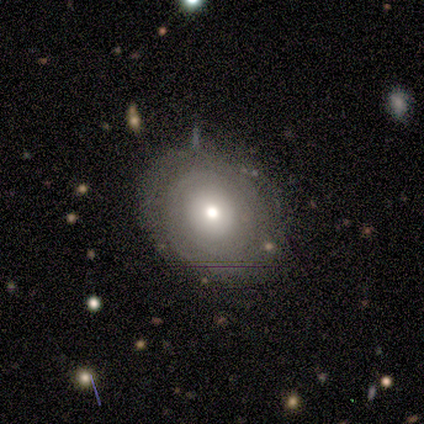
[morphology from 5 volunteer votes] A featured or disk galaxy (60%) with no bar (100%), no spiral arms (100%) and a small central bulge (67%). Merging: none (80%).